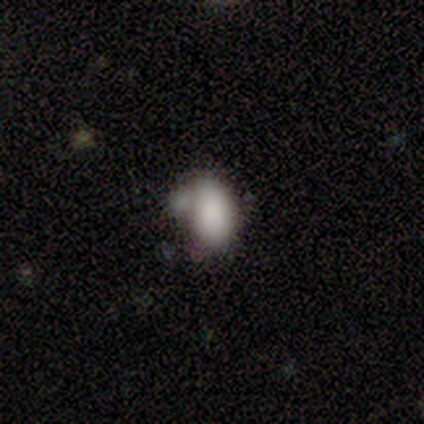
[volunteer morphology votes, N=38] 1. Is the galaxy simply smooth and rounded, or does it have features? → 74% smooth, 16% star or artifact, 11% featured or disk.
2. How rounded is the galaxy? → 100% in between, 0% round, 0% cigar-shaped.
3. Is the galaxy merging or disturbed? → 38% minor disturbance, 28% none, 19% major disturbance, 16% merger.